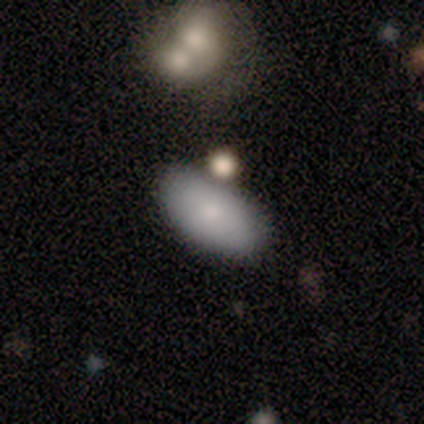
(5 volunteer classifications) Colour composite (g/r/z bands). It shows a smooth galaxy with no disk features (80%) that is in between round and cigar-shaped (100%). Merging: none (60%).